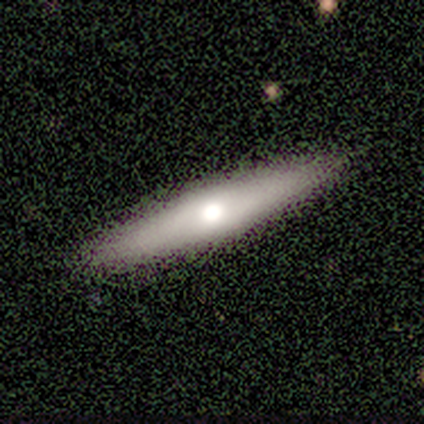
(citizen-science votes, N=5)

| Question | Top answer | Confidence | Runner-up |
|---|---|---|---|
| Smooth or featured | featured or disk | 80% | smooth (20%) |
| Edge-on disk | yes | 75% | no (25%) |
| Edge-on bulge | rounded | 100% | — |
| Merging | none | 80% | minor disturbance (20%) |